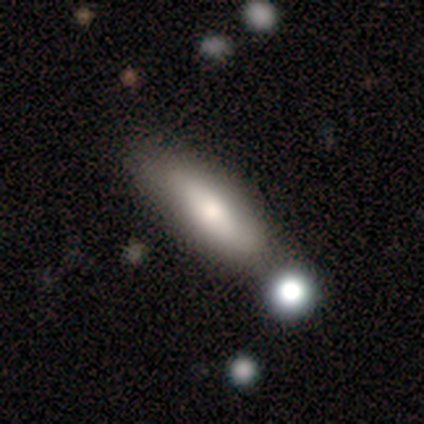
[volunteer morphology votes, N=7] Smooth or featured: smooth — 86% (featured or disk — 14%)
How rounded: cigar-shaped — 67% (in between — 33%)
Merging: none — 86% (merger — 14%)